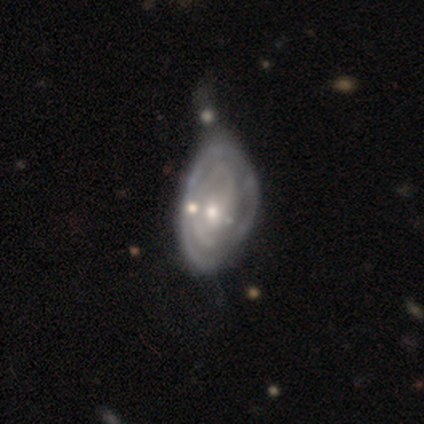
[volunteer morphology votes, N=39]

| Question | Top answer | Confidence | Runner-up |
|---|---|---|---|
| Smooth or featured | featured or disk | 82% | smooth (18%) |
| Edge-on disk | no | 97% | yes (3%) |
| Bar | no | 61% | weak (23%) |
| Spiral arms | yes | 94% | no (6%) |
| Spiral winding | tight | 69% | medium (21%) |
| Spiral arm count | can't tell | 52% | 2 (14%) |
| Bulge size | moderate | 45% | small (42%) |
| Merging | minor disturbance | 46% | none (31%) |